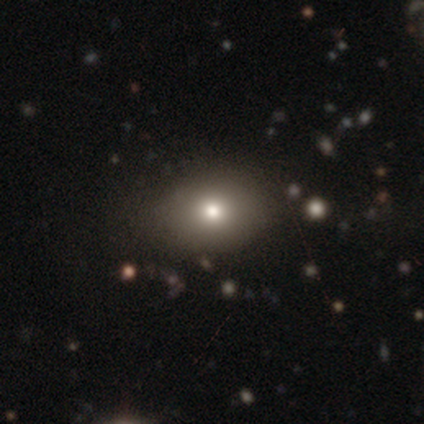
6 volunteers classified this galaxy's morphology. Volunteers were most divided on "how rounded": in between: 60%, round: 40%, cigar-shaped: 0%. More confident: merging — none (100%); smooth or featured — smooth (83%).